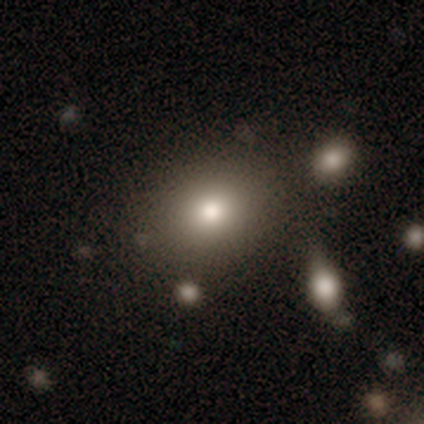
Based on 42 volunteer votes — Smooth or featured? 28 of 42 (67%) said smooth. How rounded? 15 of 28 (54%) said round. Merging? 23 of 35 (66%) said none.